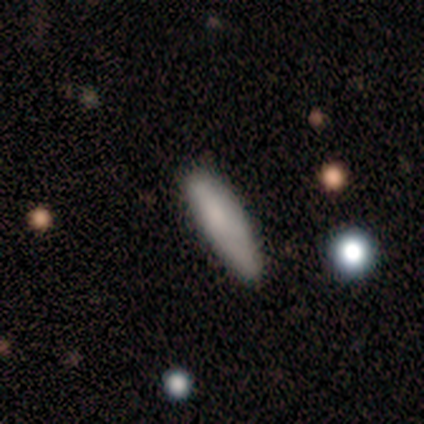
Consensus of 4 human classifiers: Smooth or featured? smooth (100%)
How rounded? cigar-shaped (75%)
Merging? none (75%)